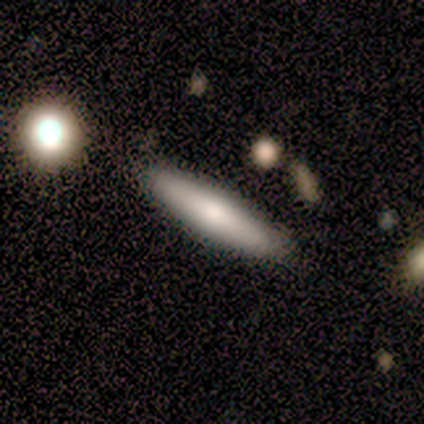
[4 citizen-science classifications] A smooth galaxy with no disk features (75%) that is cigar-shaped (67%).

Vote fractions:
- Smooth or featured? smooth: 75% / featured or disk: 25% / star or artifact: 0%
- How rounded? cigar-shaped: 67% / in between: 33% / round: 0%
- Merging? none: 75% / minor disturbance: 25% / major disturbance: 0% / merger: 0%